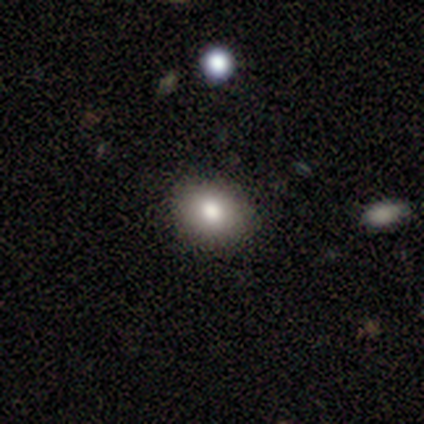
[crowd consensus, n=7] smooth 71%, star or artifact 29%, featured or disk 0%. Down the decision tree: how rounded — round (60%); merging — none (80%).